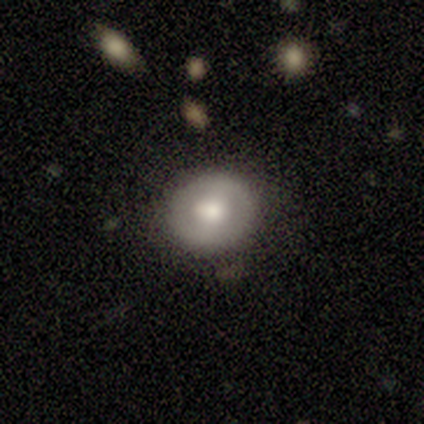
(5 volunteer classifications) smooth_or_featured: smooth (p=0.80) [alt: featured or disk p=0.20]
how_rounded: round (p=0.75) [alt: in between p=0.25]
merging: none (p=0.80) [alt: minor disturbance p=0.20]